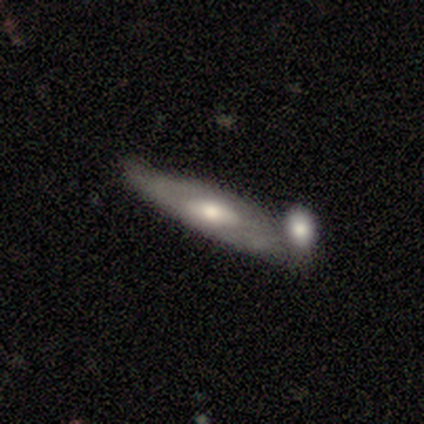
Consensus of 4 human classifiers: Overall: featured or disk (75%). Edge-on disk: yes (67%; no 33%). Edge-on bulge: rounded (100%). Merging: minor disturbance (50%; none 25%).